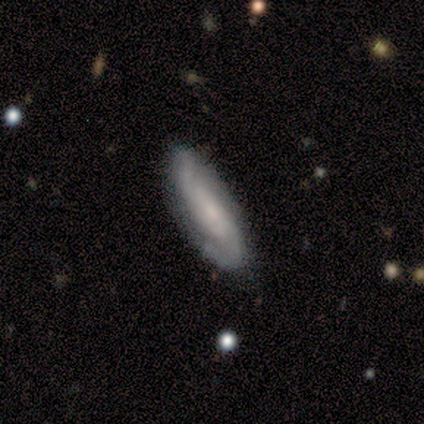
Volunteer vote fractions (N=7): Overall: featured or disk (71%). Edge-on disk: no (80%). Bar: weak (50%, tied with no). Spiral arms: yes (100%). Spiral arm count: 2 (100%). Spiral winding: medium (50%, tied with loose). Bulge size: small (50%; large 25%). Merging: none (86%).